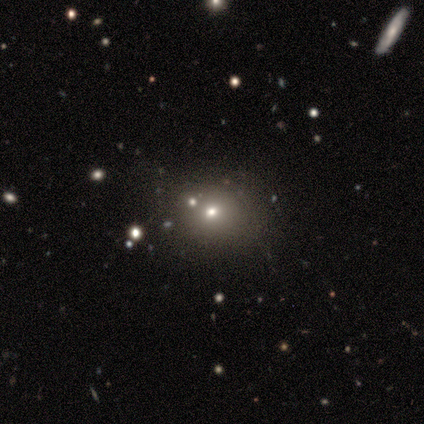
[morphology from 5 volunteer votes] Smooth or featured?
  - smooth: 100% *
  - featured or disk: 0%
  - star or artifact: 0%
How rounded?
  - round: 80% *
  - in between: 20%
  - cigar-shaped: 0%
Merging?
  - none: 60% *
  - minor disturbance: 20%
  - merger: 20%
  - major disturbance: 0%